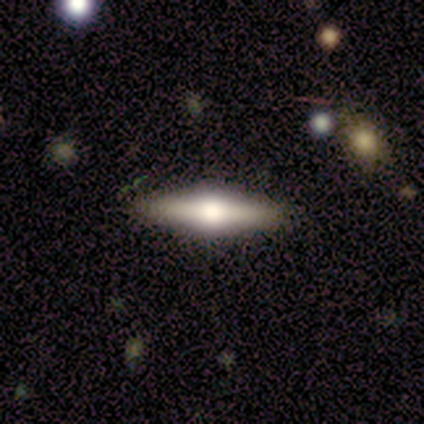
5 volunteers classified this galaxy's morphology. featured or disk 60%, smooth 40%, star or artifact 0%. Down the decision tree: edge-on disk — yes (67%); edge-on bulge — rounded (100%); merging — none (100%).